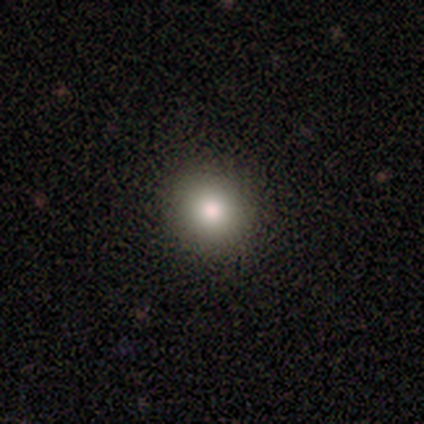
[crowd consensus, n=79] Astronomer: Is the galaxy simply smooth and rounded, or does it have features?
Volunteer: smooth — 87%.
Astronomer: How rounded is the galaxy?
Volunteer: round — 86%.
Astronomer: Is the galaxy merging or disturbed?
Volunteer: none — 42%.